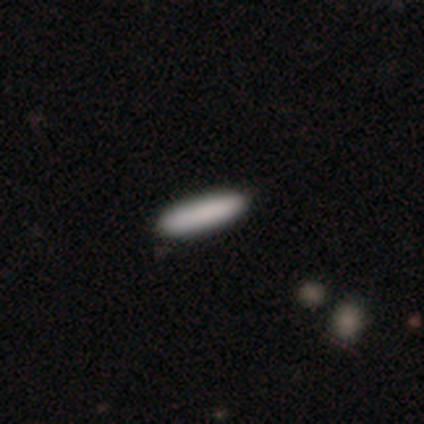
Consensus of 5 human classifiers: smooth-or-featured: smooth: 100% | featured or disk: 0% | star or artifact: 0%
  how-rounded: cigar-shaped: 80% | in between: 20% | round: 0%
  merging: none: 60% | minor disturbance: 40% | major disturbance: 0% | merger: 0%